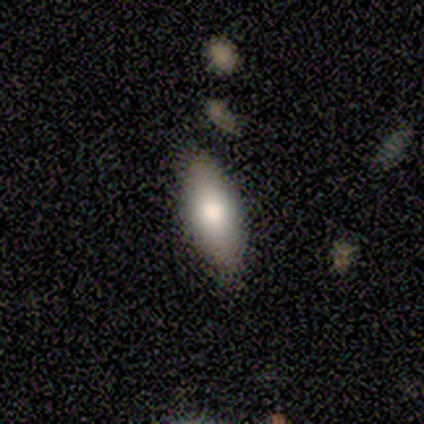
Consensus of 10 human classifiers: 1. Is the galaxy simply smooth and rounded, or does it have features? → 70% smooth, 20% star or artifact, 10% featured or disk.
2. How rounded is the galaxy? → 100% in between, 0% round, 0% cigar-shaped.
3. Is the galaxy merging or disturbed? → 88% none, 12% minor disturbance, 0% major disturbance, 0% merger.